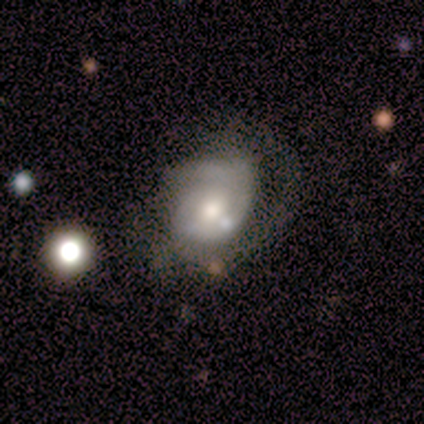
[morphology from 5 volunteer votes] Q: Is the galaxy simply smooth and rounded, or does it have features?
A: featured or disk — 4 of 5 (80%).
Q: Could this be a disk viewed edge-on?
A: no — 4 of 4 (100%).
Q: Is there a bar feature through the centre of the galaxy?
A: no — 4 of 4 (100%).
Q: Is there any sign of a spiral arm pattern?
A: yes — 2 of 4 (50%, tied with no).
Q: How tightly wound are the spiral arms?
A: tight — 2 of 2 (100%).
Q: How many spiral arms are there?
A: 1 — 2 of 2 (100%).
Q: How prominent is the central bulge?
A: dominant — 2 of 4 (50%).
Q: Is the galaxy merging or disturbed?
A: minor disturbance — 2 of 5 (40%, tied with major disturbance).